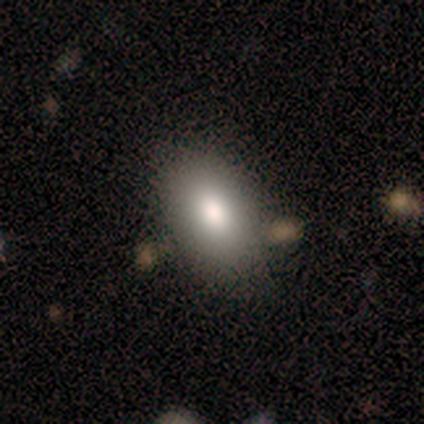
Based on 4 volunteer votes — Overall: smooth (100%). How rounded: in between (100%). Merging: none (100%).